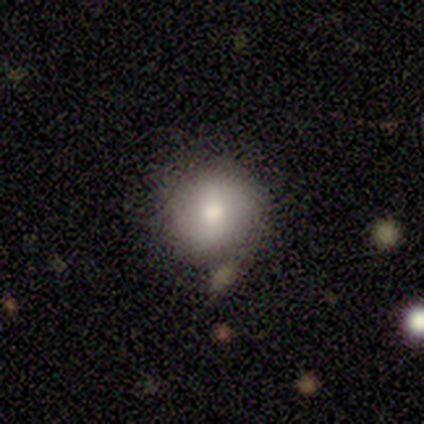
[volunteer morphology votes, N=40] Smooth or featured: smooth — 72% (featured or disk — 22%)
How rounded: round — 90% (in between — 10%)
Merging: none — 61% (merger — 11%)